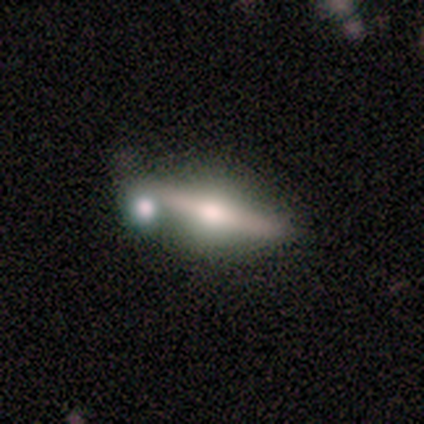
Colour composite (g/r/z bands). It shows a featured or disk galaxy (80%) viewed edge-on (100%) with a boxy central bulge (50%, tied with rounded). Merging: minor disturbance (40%, tied with merger).